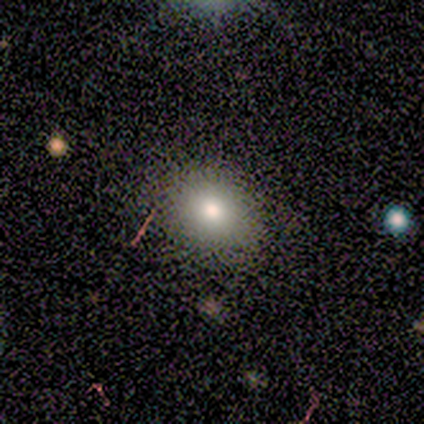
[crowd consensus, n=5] smooth-or-featured: smooth: 100% | featured or disk: 0% | star or artifact: 0%
  how-rounded: round: 80% | in between: 20% | cigar-shaped: 0%
  merging: none: 60% | minor disturbance: 40% | major disturbance: 0% | merger: 0%